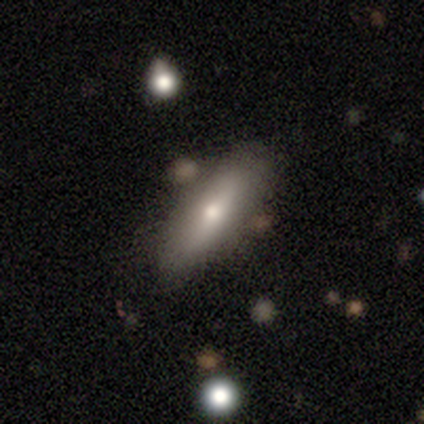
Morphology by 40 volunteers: Smooth or featured? smooth (68%)
How rounded? in between (48%, tied with cigar-shaped)
Merging? none (82%)